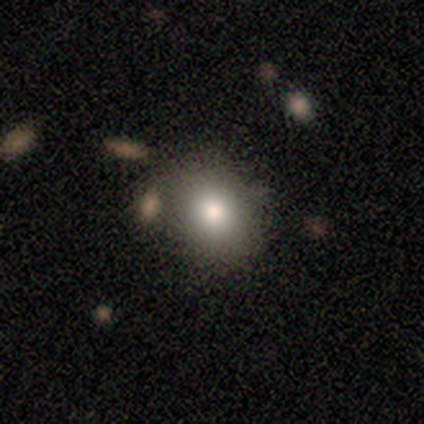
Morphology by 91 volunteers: Volunteers were most divided on "how rounded": round: 57%, in between: 42%, cigar-shaped: 1%. More confident: smooth or featured — smooth (79%); merging — none (72%).